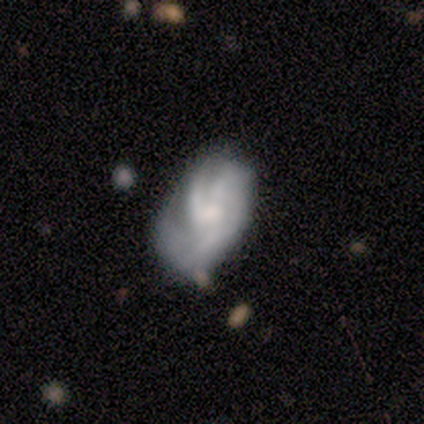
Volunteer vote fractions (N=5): featured or disk 60%, smooth 40%, star or artifact 0%. Down the decision tree: edge-on disk — no (67%); bar — no (100%); spiral arms — yes (100%); spiral arm count — 2 (50%, tied with can't tell); spiral winding — tight (50%, tied with medium); bulge size — small (100%); merging — minor disturbance (60%).